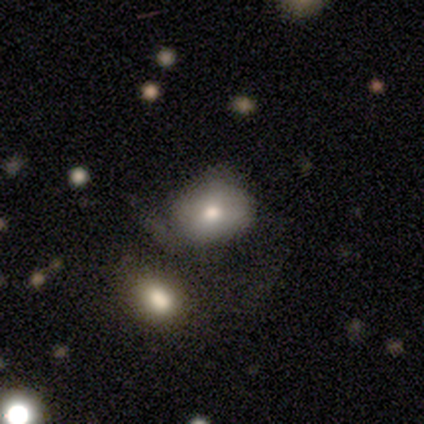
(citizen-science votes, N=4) This appears to be a smooth galaxy with no disk features (75%) that is in between round and cigar-shaped (100%). Merging: none (75%).